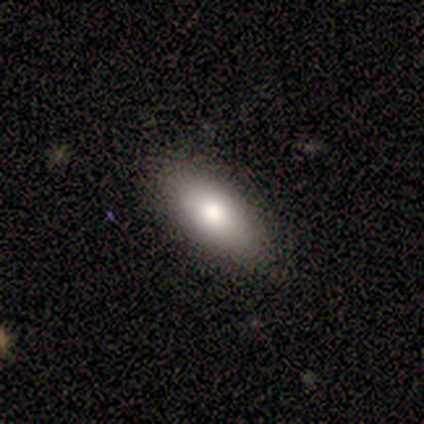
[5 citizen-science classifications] Smooth or featured? smooth (100%)
How rounded? in between (100%)
Merging? none (100%)